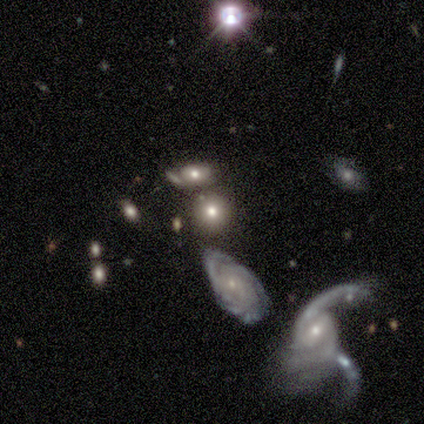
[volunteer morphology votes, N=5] Smooth or featured? 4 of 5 (80%) said smooth. How rounded? 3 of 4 (75%) said round. Merging? 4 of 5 (80%) said none.